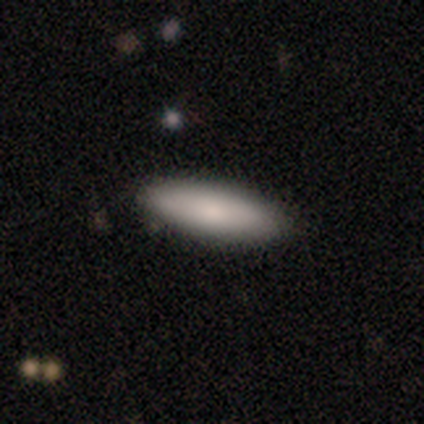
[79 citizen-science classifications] smooth 76%, featured or disk 20%, star or artifact 4%. Down the decision tree: how rounded — in between (58%); merging — none (46%).